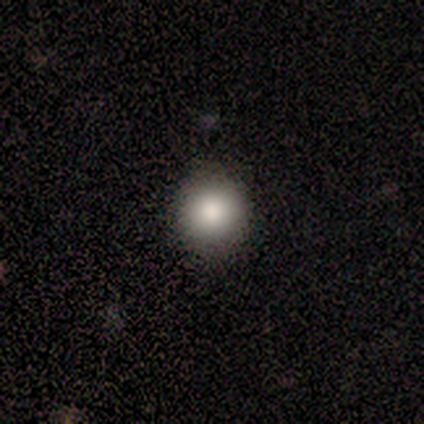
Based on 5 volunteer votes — Smooth or featured: smooth — 100%
How rounded: round — 100%
Merging: none — 100%